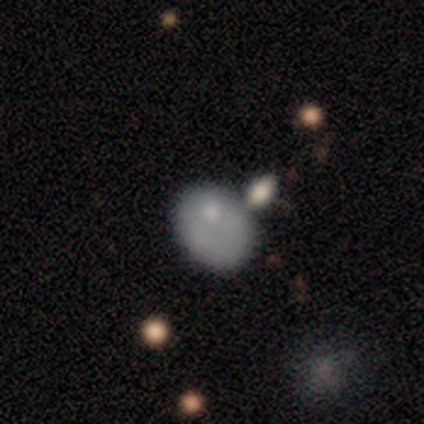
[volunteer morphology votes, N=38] A smooth galaxy with no disk features (76%) that is in between round and cigar-shaped (69%). Merging: none (58%).